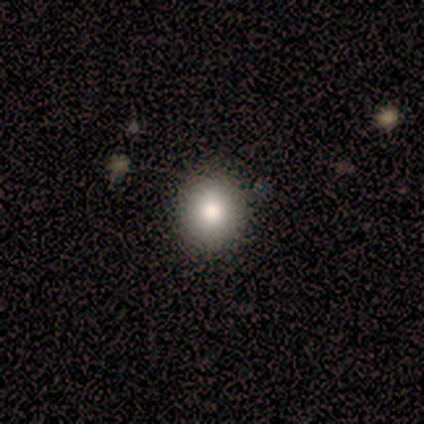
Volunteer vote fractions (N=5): smooth-or-featured: smooth: 40% (tied) | star or artifact: 40% (tied) | featured or disk: 20%
  how-rounded: in between: 100% | round: 0% | cigar-shaped: 0%
  merging: none: 100% | minor disturbance: 0% | major disturbance: 0% | merger: 0%